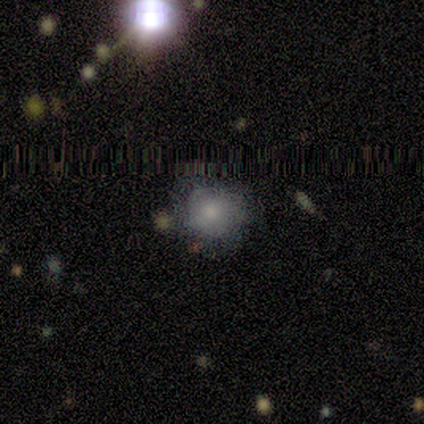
Smooth or featured: smooth — 80% (featured or disk — 20%)
How rounded: round — 100%
Merging: none — 100%